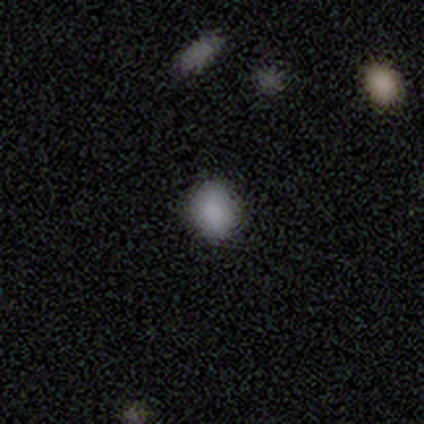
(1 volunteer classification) Smooth or featured? featured or disk (100%)
Edge-on disk? no (100%)
Bar? no (100%)
Spiral arms? no (100%)
Bulge size? dominant (100%)
Merging? none (100%)